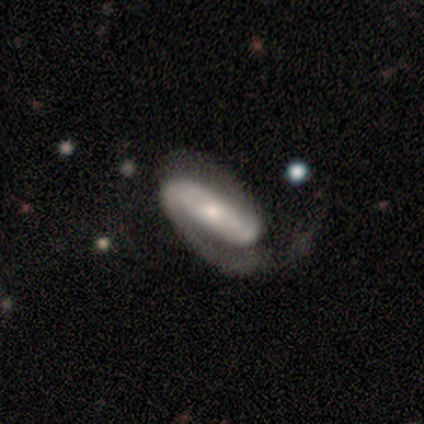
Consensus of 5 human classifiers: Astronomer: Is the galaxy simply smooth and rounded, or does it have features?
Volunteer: featured or disk — 60%.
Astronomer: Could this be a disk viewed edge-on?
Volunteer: no — 100%.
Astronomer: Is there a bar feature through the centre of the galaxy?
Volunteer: strong — 33%, tied with weak and no at 33%.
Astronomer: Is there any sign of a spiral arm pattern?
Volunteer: yes — 100%.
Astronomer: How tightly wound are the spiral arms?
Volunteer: tight — 100%.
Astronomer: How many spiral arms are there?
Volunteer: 2 — 100%.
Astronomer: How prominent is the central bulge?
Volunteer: small — 100%.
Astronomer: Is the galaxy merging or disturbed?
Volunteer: none — 75%.